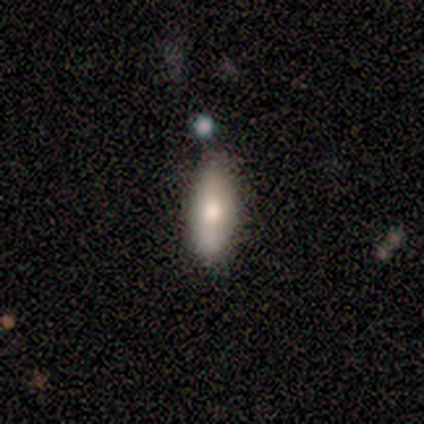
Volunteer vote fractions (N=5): A smooth galaxy with no disk features (80%) that is in between round and cigar-shaped (50%, tied with cigar-shaped).

Vote fractions:
- Smooth or featured? smooth: 80% / featured or disk: 20% / star or artifact: 0%
- How rounded? in between: 50% (tied) / cigar-shaped: 50% (tied) / round: 0%
- Merging? none: 100% / minor disturbance: 0% / major disturbance: 0% / merger: 0%